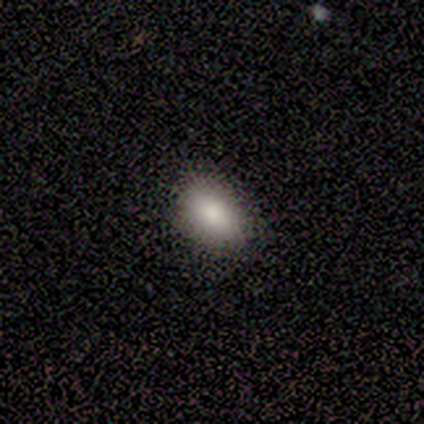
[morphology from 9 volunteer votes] This appears to be a smooth galaxy with no disk features (78%) that is in between round and cigar-shaped (86%). Merging: none (88%).